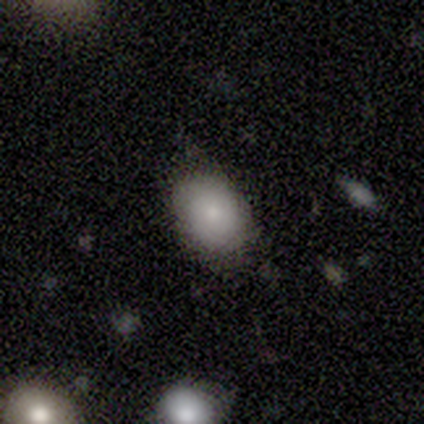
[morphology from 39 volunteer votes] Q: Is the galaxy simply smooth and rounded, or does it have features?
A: smooth — 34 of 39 (87%).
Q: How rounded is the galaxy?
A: in between — 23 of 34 (68%).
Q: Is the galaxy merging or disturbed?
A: none — 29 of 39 (74%).